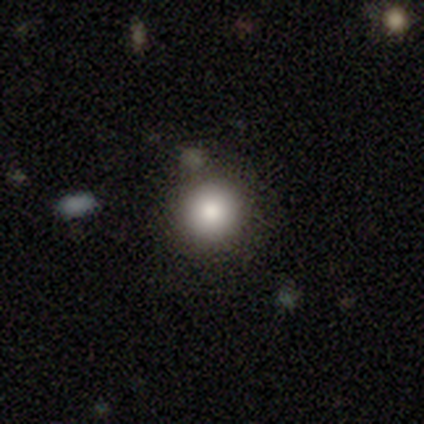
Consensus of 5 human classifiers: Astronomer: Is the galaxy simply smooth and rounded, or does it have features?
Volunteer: smooth — 100%.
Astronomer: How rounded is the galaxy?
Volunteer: round — 100%.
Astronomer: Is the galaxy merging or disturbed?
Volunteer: none — 80%.